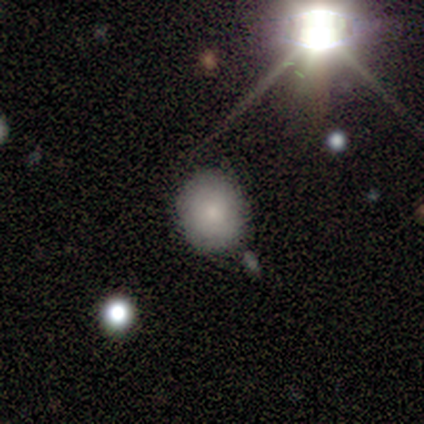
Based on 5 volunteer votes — This is clearly a smooth galaxy (100%). How rounded: likely in between (60%). Merging: clearly none (100%).